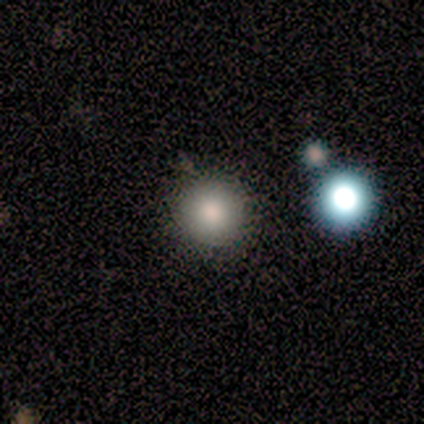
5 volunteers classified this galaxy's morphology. Smooth or featured: smooth — 80% (featured or disk — 20%)
How rounded: round — 100%
Merging: none — 80% (merger — 20%)